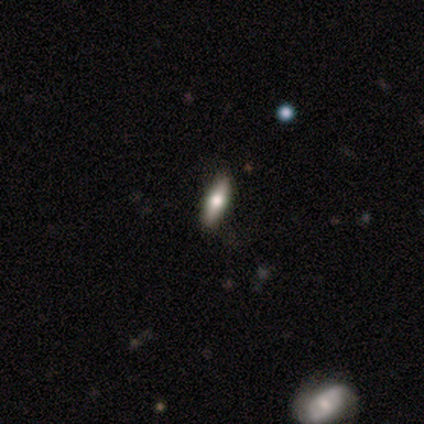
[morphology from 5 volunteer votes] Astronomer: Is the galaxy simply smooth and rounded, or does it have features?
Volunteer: featured or disk — 60% (runner-up: smooth, 40%).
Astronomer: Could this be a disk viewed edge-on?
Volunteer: yes — 100%.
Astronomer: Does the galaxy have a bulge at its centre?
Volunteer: rounded — 100%.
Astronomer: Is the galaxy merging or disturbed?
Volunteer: none — 100%.